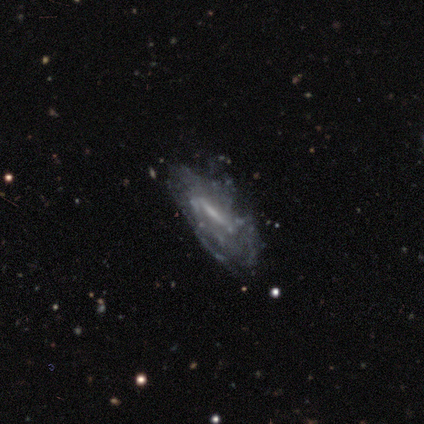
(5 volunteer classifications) Q: Smooth or featured?
A: featured or disk (60%); runner-up: smooth (20%)
Q: Edge-on disk?
A: no (100%)
Q: Bar?
A: weak (67%); runner-up: strong (33%)
Q: Spiral arms?
A: yes (100%)
Q: Spiral winding?
A: medium (67%); runner-up: loose (33%)
Q: Spiral arm count?
A: can't tell (67%); runner-up: 1 (33%)
Q: Bulge size?
A: small (67%); runner-up: moderate (33%)
Q: Merging?
A: none (50%); runner-up: minor disturbance (25%)